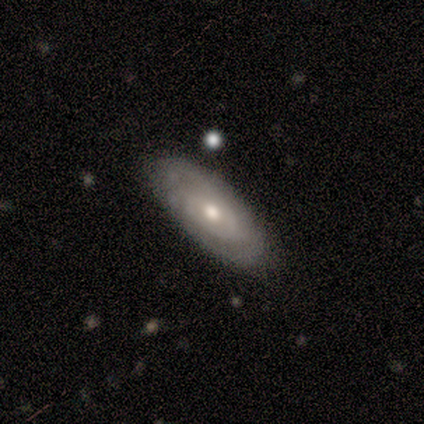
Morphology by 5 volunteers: Volunteers were most divided on "spiral arm count" (2-way tie): 1: 50%, can't tell: 50%, 2: 0%, 3: 0%, 4: 0%, more than 4: 0%; "bulge size" (3-way tie): large: 33%, moderate: 33%, small: 33%, dominant: 0%, none: 0%. More confident: bar — no (100%); spiral winding — tight (100%); smooth or featured — featured or disk (80%); merging — none (80%); edge-on disk — no (75%); spiral arms — yes (67%).